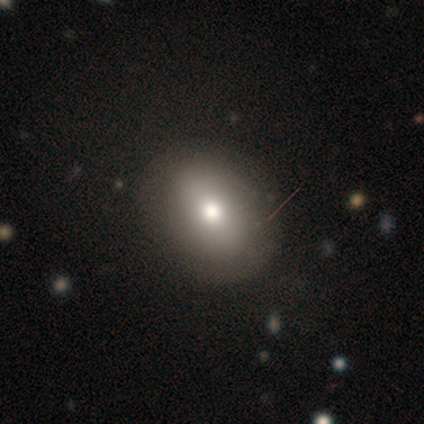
This appears to be a smooth galaxy with no disk features (80%) that is round (75%). Merging: minor disturbance (60%).